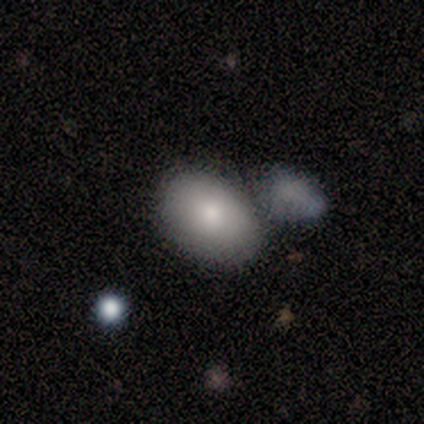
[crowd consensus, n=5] Overall: smooth (80%). How rounded: in between (75%). Merging: minor disturbance (40%, tied with merger).